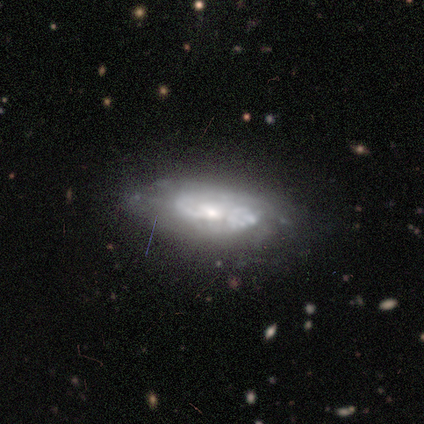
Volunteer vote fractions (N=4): A featured or disk galaxy (75%) with a weak bar (100%), 2 (100%) medium (50%, tied with loose) spiral arms (100%) and a moderate central bulge (100%). Merging: none (75%).